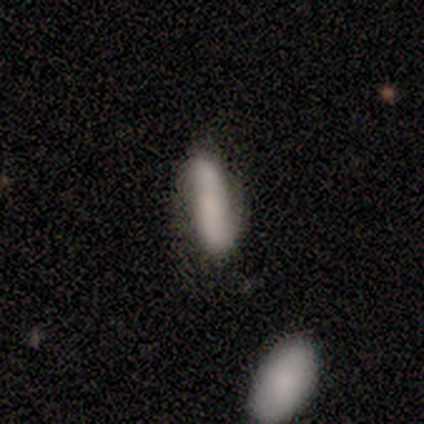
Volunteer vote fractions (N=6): Smooth or featured?
  - smooth: 67% *
  - featured or disk: 17%
  - star or artifact: 17%
How rounded?
  - in between: 50% * (tied)
  - cigar-shaped: 50% * (tied)
  - round: 0%
Merging?
  - none: 60% *
  - minor disturbance: 40%
  - major disturbance: 0%
  - merger: 0%